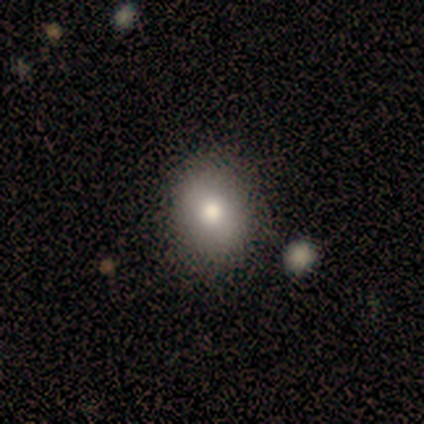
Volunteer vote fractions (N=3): Q: Smooth or featured?
A: smooth (100%)
Q: How rounded?
A: in between (67%); runner-up: round (33%)
Q: Merging?
A: none (100%)